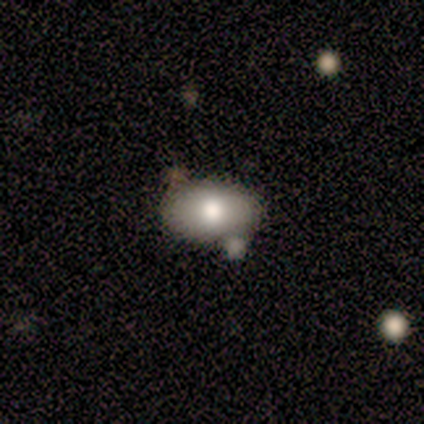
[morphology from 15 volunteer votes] This appears to be a smooth galaxy with no disk features (87%) that is in between round and cigar-shaped (100%). Merging: none (57%).